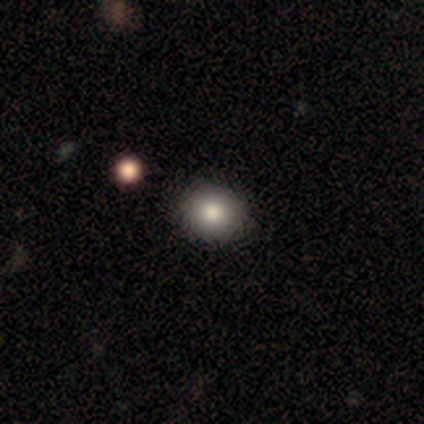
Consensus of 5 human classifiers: smooth 80%, star or artifact 20%, featured or disk 0%. Down the decision tree: how rounded — round (75%); merging — none (100%).